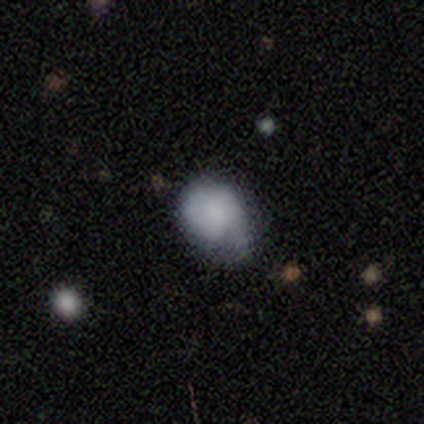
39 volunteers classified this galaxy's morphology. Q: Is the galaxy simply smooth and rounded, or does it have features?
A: smooth — 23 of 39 (59%).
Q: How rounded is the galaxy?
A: in between — 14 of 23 (61%).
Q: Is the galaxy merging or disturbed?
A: minor disturbance — 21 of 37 (57%).